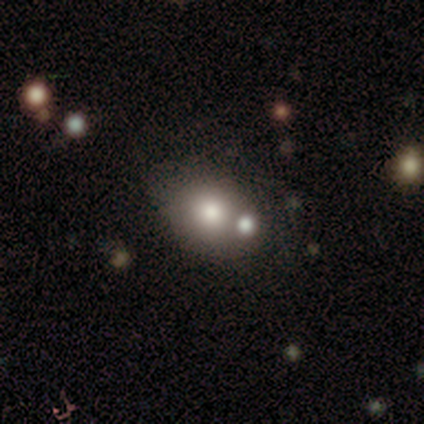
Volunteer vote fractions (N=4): Smooth or featured?
  - smooth: 100% *
  - featured or disk: 0%
  - star or artifact: 0%
How rounded?
  - round: 50% * (tied)
  - in between: 50% * (tied)
  - cigar-shaped: 0%
Merging?
  - none: 50% * (tied)
  - merger: 50% * (tied)
  - minor disturbance: 0%
  - major disturbance: 0%